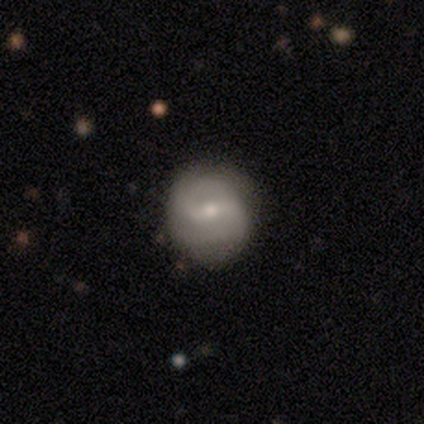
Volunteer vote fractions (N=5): smooth-or-featured: featured or disk: 60% | smooth: 40% | star or artifact: 0%
  disk-edge-on: no: 100% | yes: 0%
    bar: weak: 100% | strong: 0% | no: 0%
    has-spiral-arms: yes: 100% | no: 0%
      spiral-winding: tight: 67% | loose: 33% | medium: 0%
      spiral-arm-count: 2: 100% | 1: 0% | 3: 0% | 4: 0% | more than 4: 0% | can't tell: 0%
    bulge-size: moderate: 67% | small: 33% | dominant: 0% | large: 0% | none: 0%
  merging: none: 100% | minor disturbance: 0% | major disturbance: 0% | merger: 0%